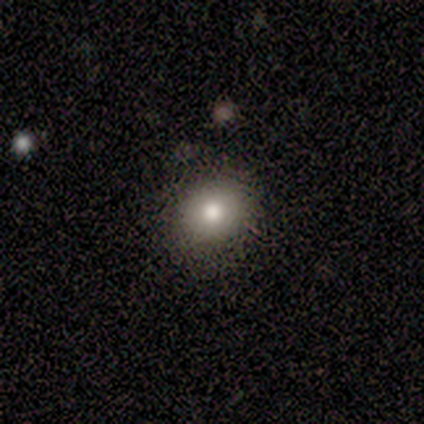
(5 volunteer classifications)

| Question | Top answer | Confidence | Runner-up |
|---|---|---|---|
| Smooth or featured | smooth | 80% | featured or disk (20%) |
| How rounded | round | 100% | — |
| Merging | none | 100% | — |